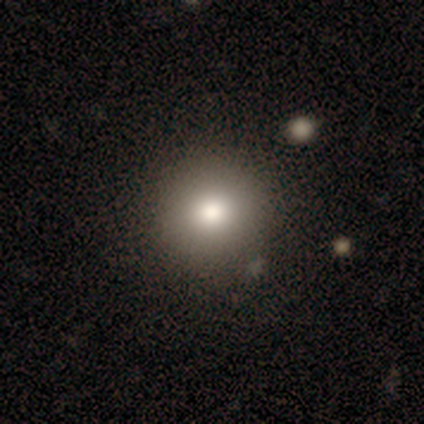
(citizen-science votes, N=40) This is clearly a smooth galaxy (88%). How rounded: clearly round (91%). Merging: clearly none (87%).